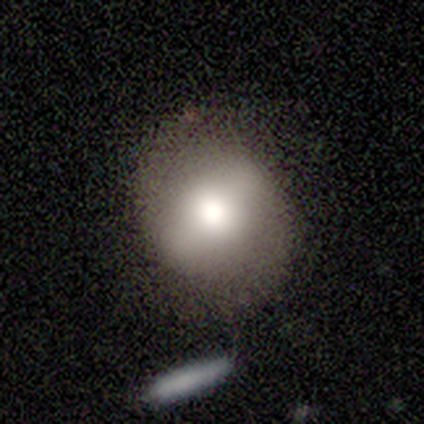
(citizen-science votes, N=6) Smooth or featured? smooth (83%)
How rounded? round (80%)
Merging? none (83%)